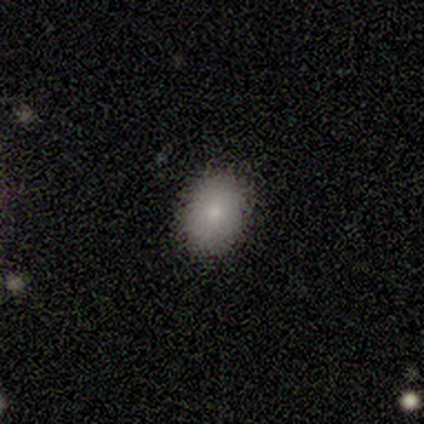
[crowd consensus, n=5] Q: Smooth or featured?
A: smooth (100%)
Q: How rounded?
A: round (60%); runner-up: in between (40%)
Q: Merging?
A: none (100%)